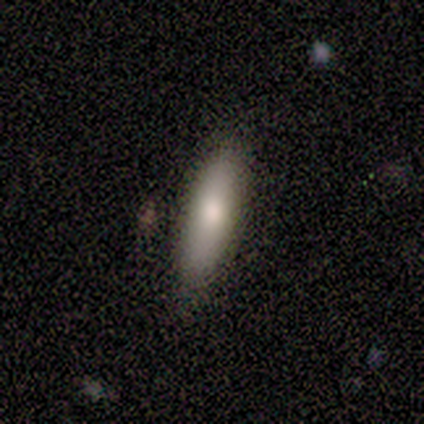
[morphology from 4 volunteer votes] smooth_or_featured: smooth (p=0.50) [tied with: featured or disk p=0.50]
how_rounded: in between (p=0.50) [tied with: cigar-shaped p=0.50]
merging: none (p=1.00)